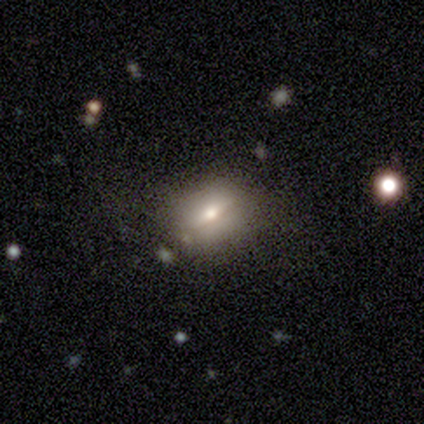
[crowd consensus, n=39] smooth-or-featured: smooth: 54% | featured or disk: 36% | star or artifact: 10%
  how-rounded: in between: 57% | round: 43% | cigar-shaped: 0%
  merging: none: 69% | minor disturbance: 20% | major disturbance: 11% | merger: 0%